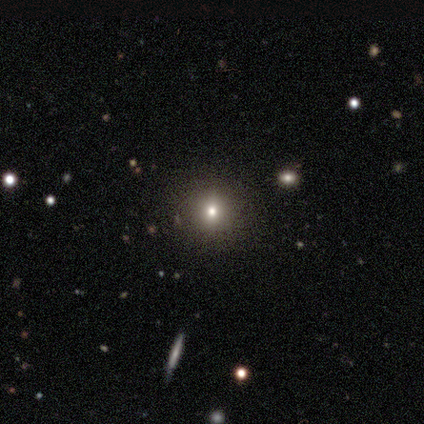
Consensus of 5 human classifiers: Smooth or featured: smooth — 80% (star or artifact — 20%)
How rounded: round — 75% (in between — 25%)
Merging: minor disturbance — 75% (none — 25%)